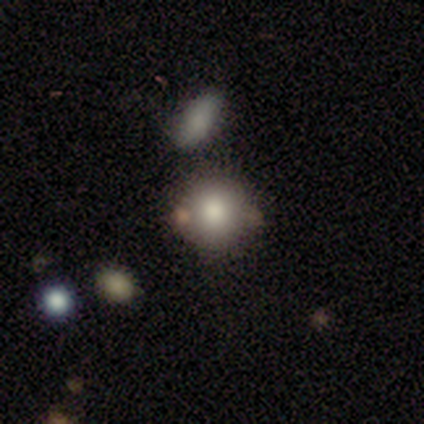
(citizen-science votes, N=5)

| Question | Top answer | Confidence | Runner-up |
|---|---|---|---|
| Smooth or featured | smooth | 60% | featured or disk (20%) |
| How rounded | round | 100% | — |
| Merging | none | 75% | minor disturbance (25%) |